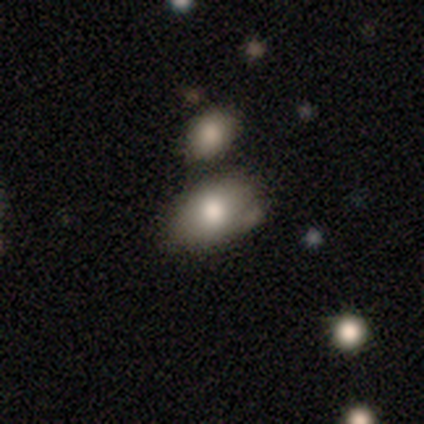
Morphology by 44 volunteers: smooth-or-featured: smooth: 80% | star or artifact: 11% | featured or disk: 9%
  how-rounded: in between: 94% | round: 6% | cigar-shaped: 0%
  merging: none: 62% | minor disturbance: 18% | merger: 18% | major disturbance: 3%